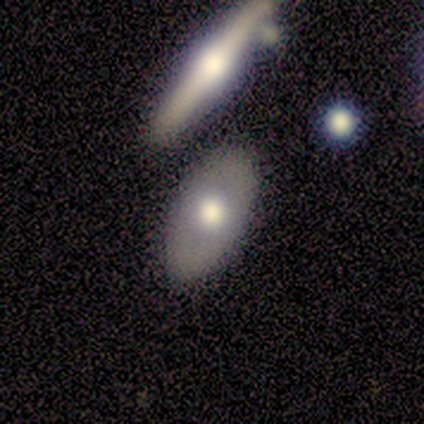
Overall: smooth (53%; featured or disk 39%). How rounded: in between (95%). Merging: none (74%).